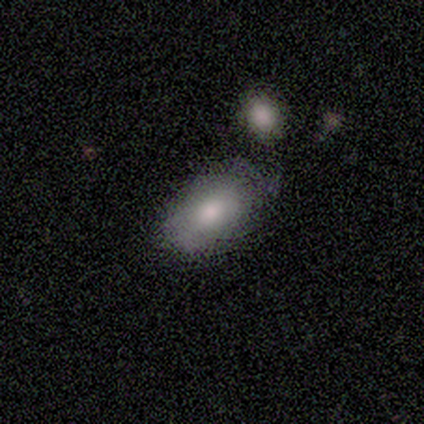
Smooth or featured? smooth (80%)
How rounded? in between (75%)
Merging? minor disturbance (60%)